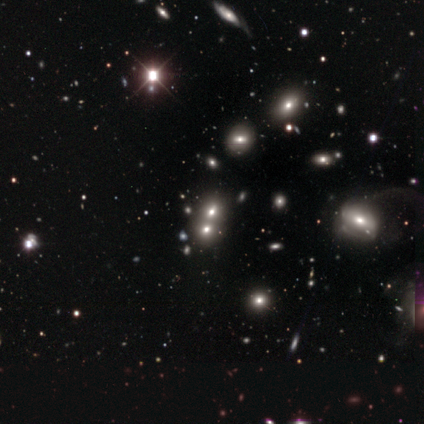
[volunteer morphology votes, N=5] Smooth or featured? star or artifact (60%)